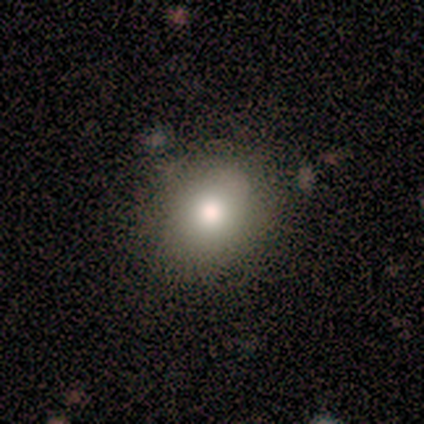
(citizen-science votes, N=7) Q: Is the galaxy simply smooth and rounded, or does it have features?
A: smooth — 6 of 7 (86%).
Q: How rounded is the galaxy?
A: round — 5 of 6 (83%).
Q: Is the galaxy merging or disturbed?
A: none — 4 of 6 (67%).